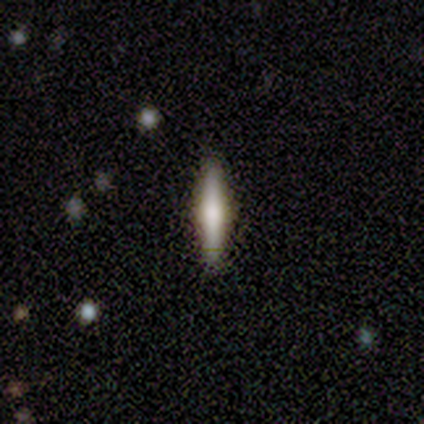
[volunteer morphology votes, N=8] type=featured or disk (50%); edge-on=yes (100%); edge-on bulge=rounded (100%); merging=none (100%).